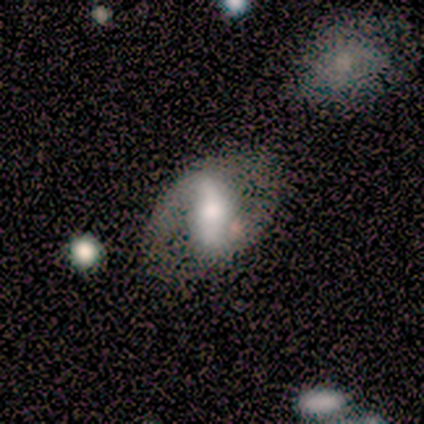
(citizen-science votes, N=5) This appears to be a featured or disk galaxy (60%) with a strong bar (100%), 2 (100%) loose (67%) spiral arms (100%) and a large central bulge (33%, tied with moderate and small). Merging: minor disturbance (50%).